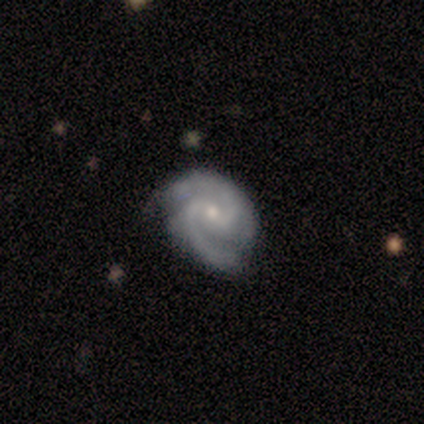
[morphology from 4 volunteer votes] Volunteers were most divided on "bar": weak: 50%, strong: 25%, no: 25%. More confident: smooth or featured — featured or disk (100%); edge-on disk — no (100%); spiral arms — yes (100%); spiral arm count — 2 (100%); bulge size — small (100%); spiral winding — medium (75%); merging — none (75%).